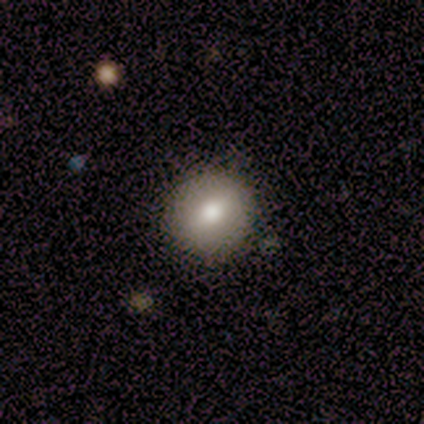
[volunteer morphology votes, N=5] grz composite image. It shows a smooth galaxy with no disk features (80%) that is round (100%). Merging: none (100%).